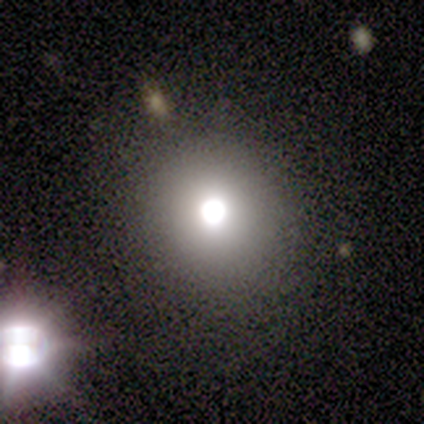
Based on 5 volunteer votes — Morphology: type=smooth (60%); roundness=round (100%); merging=none (100%).